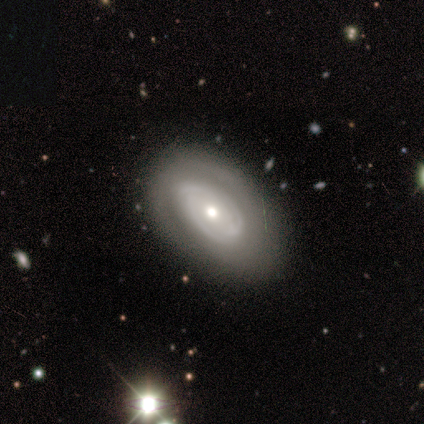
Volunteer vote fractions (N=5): Overall: featured or disk (100%). Edge-on disk: no (100%). Bar: no (60%; weak 40%). Spiral arms: yes (80%). Spiral arm count: 2 (50%, tied with can't tell). Spiral winding: tight (75%). Bulge size: moderate (80%). Merging: none (60%; minor disturbance 40%).